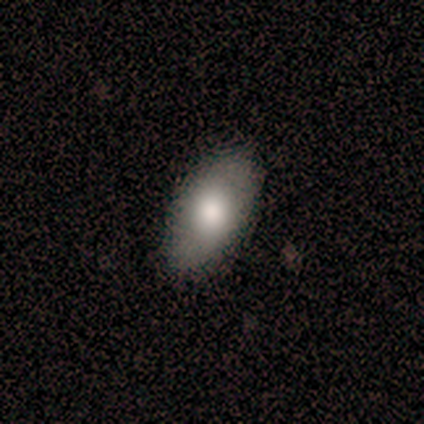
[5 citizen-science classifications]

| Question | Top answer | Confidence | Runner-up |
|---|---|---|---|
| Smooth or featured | smooth | 60% | featured or disk (40%) |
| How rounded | in between | 67% | round (33%) |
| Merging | none | 80% | minor disturbance (20%) |